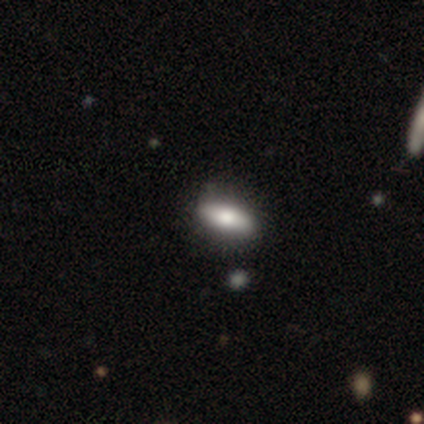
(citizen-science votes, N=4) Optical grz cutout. It shows a smooth galaxy with no disk features (50%, tied with star or artifact) that is in between round and cigar-shaped (50%, tied with cigar-shaped). Merging: none (100%).